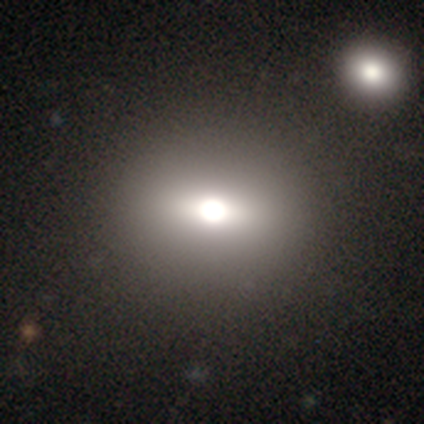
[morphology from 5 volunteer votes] Smooth or featured? 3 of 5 (60%) said smooth. How rounded? 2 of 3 (67%) said round. Merging? 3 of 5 (60%) said none.